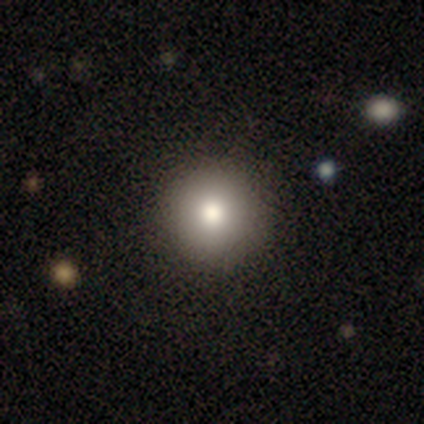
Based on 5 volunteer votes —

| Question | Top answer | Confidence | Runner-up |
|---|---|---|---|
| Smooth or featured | smooth | 100% | — |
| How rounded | round | 100% | — |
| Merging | none | 80% | minor disturbance (20%) |